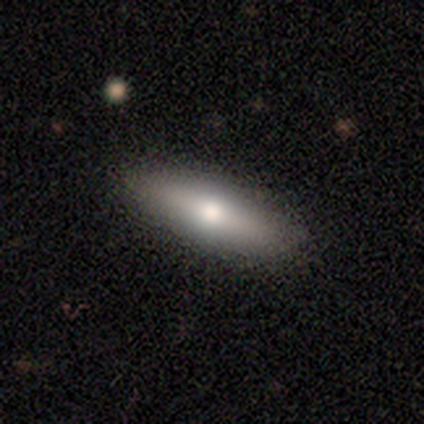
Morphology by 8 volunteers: smooth-or-featured: smooth: 50% | featured or disk: 38% | star or artifact: 12%
  how-rounded: in between: 75% | cigar-shaped: 25% | round: 0%
  merging: none: 100% | minor disturbance: 0% | major disturbance: 0% | merger: 0%